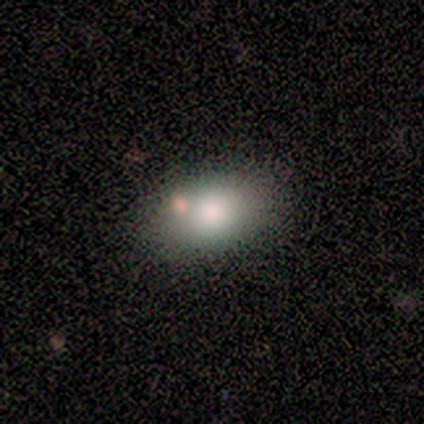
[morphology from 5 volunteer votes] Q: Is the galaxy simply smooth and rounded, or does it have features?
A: smooth — 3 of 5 (60%).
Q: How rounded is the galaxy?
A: in between — 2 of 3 (67%).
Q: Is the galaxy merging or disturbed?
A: none — 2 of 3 (67%).